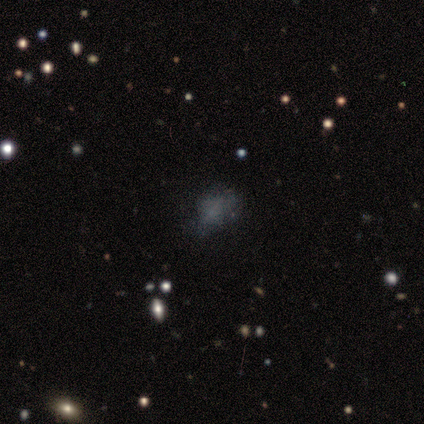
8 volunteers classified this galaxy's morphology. Volunteers were most divided on "smooth or featured": star or artifact: 50%, smooth: 38%, featured or disk: 12%.